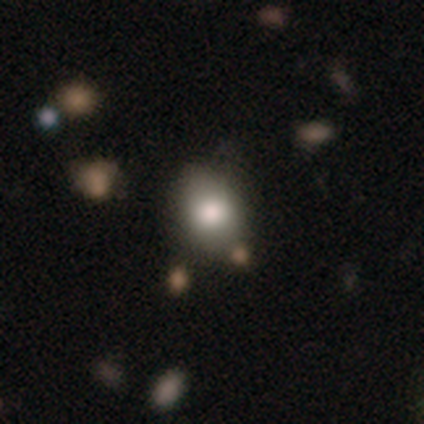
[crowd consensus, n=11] Overall: smooth (73%). How rounded: in between (75%). Merging: none (82%).